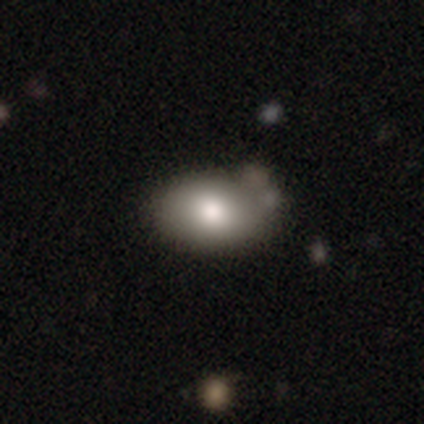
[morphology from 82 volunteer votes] smooth 79%, featured or disk 11%, star or artifact 10%. Down the decision tree: how rounded — in between (91%); merging — none (38%).